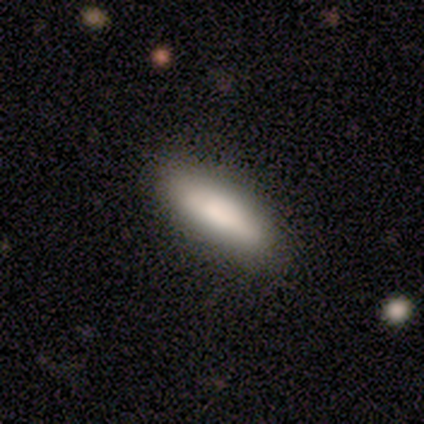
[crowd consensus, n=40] Overall: smooth (85%). How rounded: in between (53%; cigar-shaped 47%). Merging: none (66%).